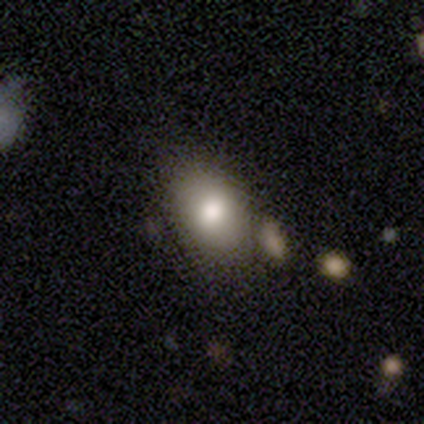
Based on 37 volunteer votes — Q: Smooth or featured?
A: smooth (78%); runner-up: featured or disk (11%)
Q: How rounded?
A: in between (83%); runner-up: round (17%)
Q: Merging?
A: none (61%); runner-up: minor disturbance (24%)